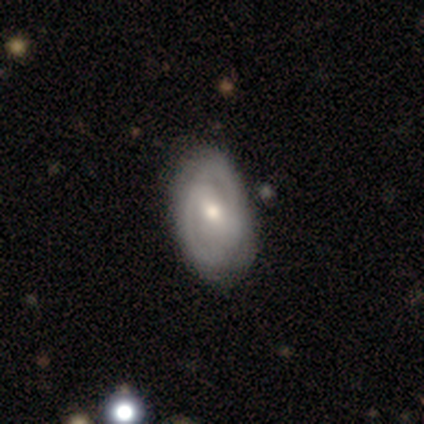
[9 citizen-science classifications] Smooth or featured?
  - featured or disk: 78% *
  - smooth: 11%
  - star or artifact: 11%
Edge-on disk?
  - no: 86% *
  - yes: 14%
Bar?
  - strong: 50% *
  - weak: 33%
  - no: 17%
Spiral arms?
  - yes: 83% *
  - no: 17%
Spiral winding?
  - tight: 100% *
  - medium: 0%
  - loose: 0%
Spiral arm count?
  - 2: 80% *
  - can't tell: 20%
  - 1: 0%
  - 3: 0%
  - 4: 0%
  - more than 4: 0%
Bulge size?
  - moderate: 83% *
  - small: 17%
  - dominant: 0%
  - large: 0%
  - none: 0%
Merging?
  - none: 50% *
  - minor disturbance: 38%
  - major disturbance: 12%
  - merger: 0%